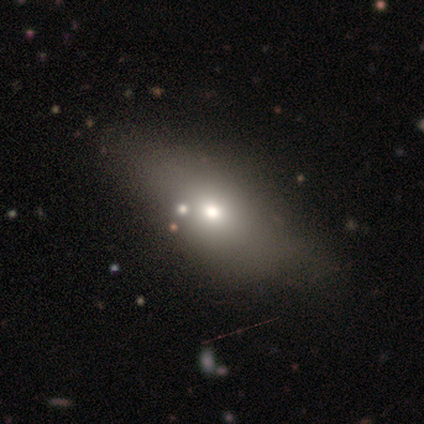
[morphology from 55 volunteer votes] Smooth or featured?
  - smooth: 76% *
  - featured or disk: 15%
  - star or artifact: 9%
How rounded?
  - in between: 76% *
  - cigar-shaped: 21%
  - round: 2%
Merging?
  - none: 58% *
  - minor disturbance: 14%
  - major disturbance: 6%
  - merger: 4%